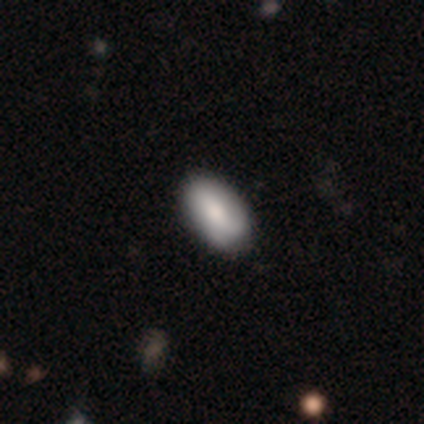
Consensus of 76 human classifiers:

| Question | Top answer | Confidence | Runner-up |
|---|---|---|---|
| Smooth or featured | smooth | 76% | featured or disk (21%) |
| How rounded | in between | 97% | cigar-shaped (3%) |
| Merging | none | 43% | minor disturbance (8%) |